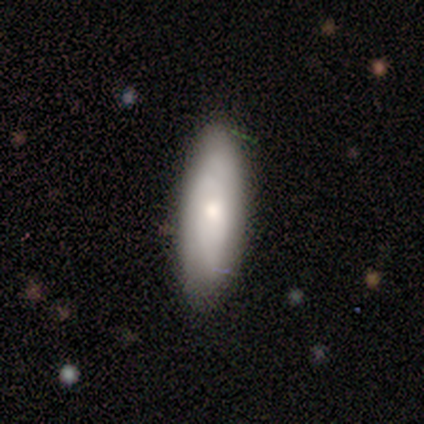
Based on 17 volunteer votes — smooth 82%, featured or disk 18%, star or artifact 0%. Down the decision tree: how rounded — in between (71%); merging — none (76%).